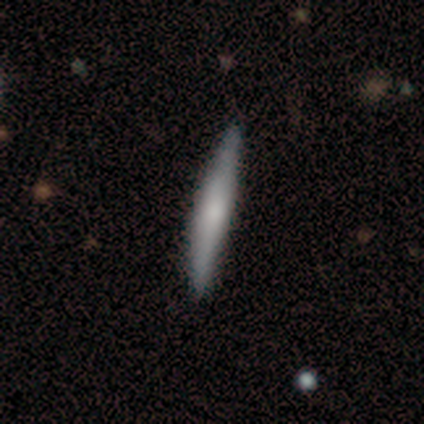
smooth_or_featured: smooth (p=1.00)
how_rounded: cigar-shaped (p=1.00)
merging: none (p=1.00)